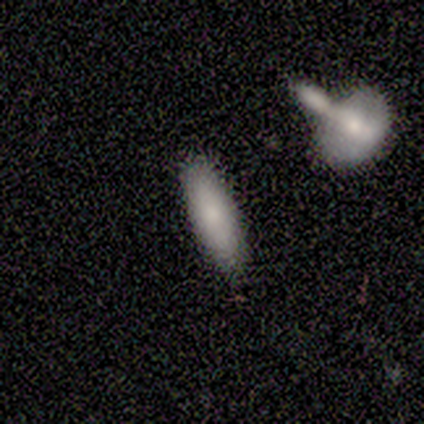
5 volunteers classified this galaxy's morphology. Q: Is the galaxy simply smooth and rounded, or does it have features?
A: smooth — 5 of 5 (100%).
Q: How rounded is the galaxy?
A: cigar-shaped — 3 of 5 (60%).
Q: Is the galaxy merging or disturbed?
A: none — 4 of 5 (80%).